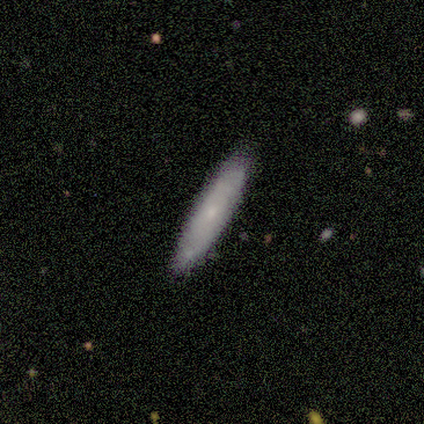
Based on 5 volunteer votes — This appears to be a smooth galaxy with no disk features (40%, tied with featured or disk) that is cigar-shaped (100%). Merging: none (100%).